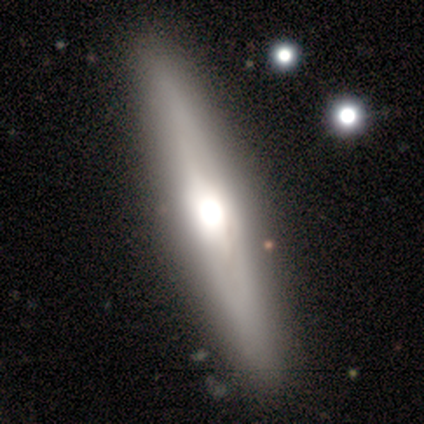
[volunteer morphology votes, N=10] smooth_or_featured: featured or disk (p=0.80) [alt: smooth p=0.20]
disk_edge_on: yes (p=0.75) [alt: no p=0.25]
edge_on_bulge: rounded (p=1.00)
merging: none (p=0.80) [alt: minor disturbance p=0.20]